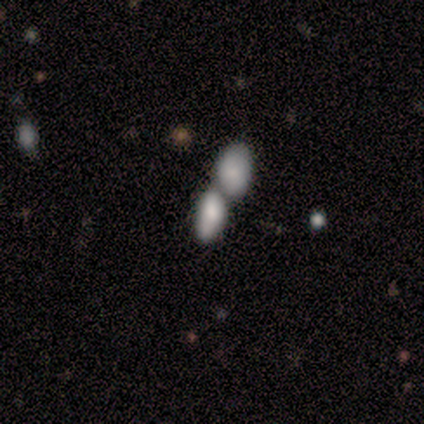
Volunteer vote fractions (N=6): A smooth galaxy with no disk features (67%) that is in between round and cigar-shaped (100%). Merging: merger (67%).